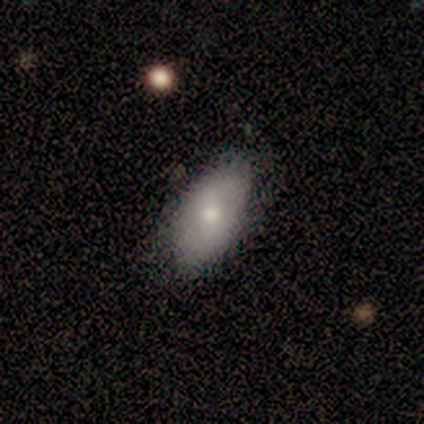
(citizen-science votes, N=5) This appears to be a smooth galaxy with no disk features (80%) that is in between round and cigar-shaped (100%). Merging: none (80%).